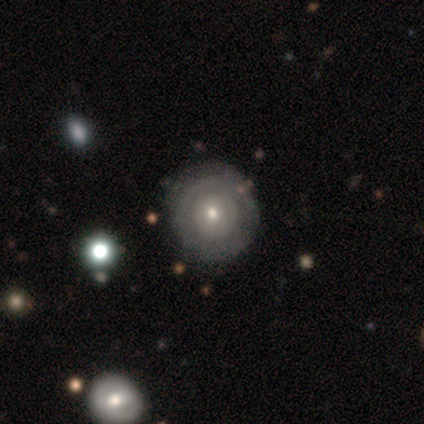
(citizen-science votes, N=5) A featured or disk galaxy (60%) with no bar (100%), no spiral arms (67%) and a small central bulge (67%). Merging: none (80%).